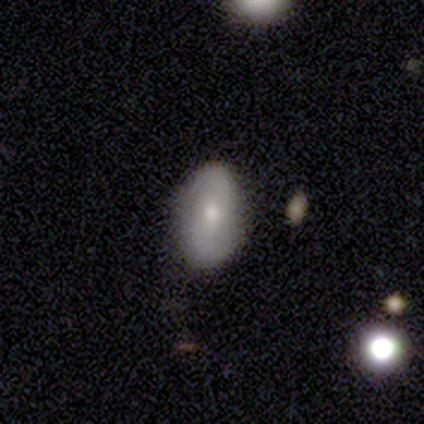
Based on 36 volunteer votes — A featured or disk galaxy (47%) with no bar (65%), 2 (100%) loose (50%) spiral arms (71%) and a small central bulge (71%). Merging: none (89%).